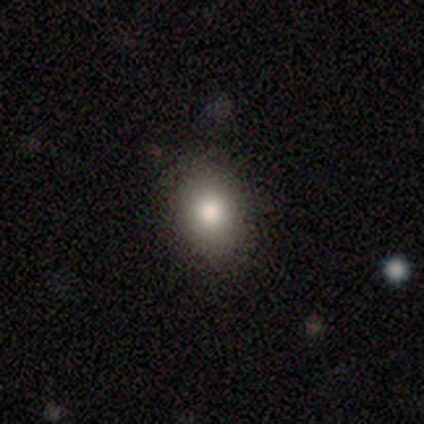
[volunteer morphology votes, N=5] Smooth or featured: smooth — 100%
How rounded: in between — 80% (round — 20%)
Merging: none — 80% (minor disturbance — 20%)